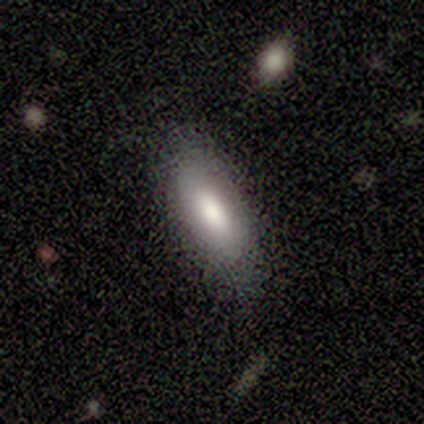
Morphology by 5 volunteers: smooth 80%, featured or disk 20%, star or artifact 0%. Down the decision tree: how rounded — cigar-shaped (50%); merging — none (80%).